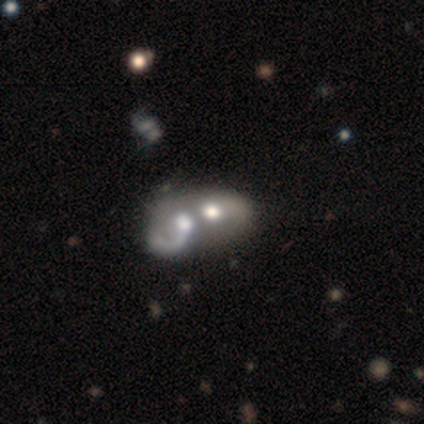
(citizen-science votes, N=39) Volunteers were most divided on "spiral arms": no: 52%, yes: 48%. More confident: edge-on disk — no (100%); bar — no (81%); bulge size — moderate (71%); merging — merger (71%); smooth or featured — featured or disk (54%).